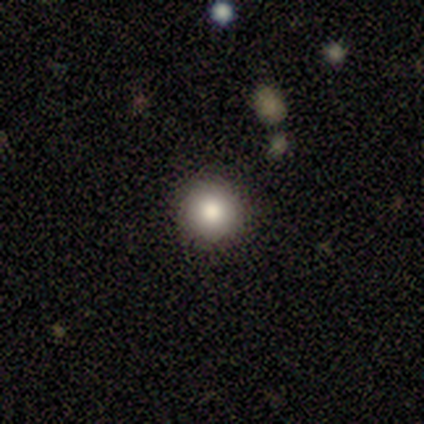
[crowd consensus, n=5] A smooth galaxy with no disk features (60%) that is round (100%).

Vote fractions:
- Smooth or featured? smooth: 60% / star or artifact: 40% / featured or disk: 0%
- How rounded? round: 100% / in between: 0% / cigar-shaped: 0%
- Merging? none: 100% / minor disturbance: 0% / major disturbance: 0% / merger: 0%